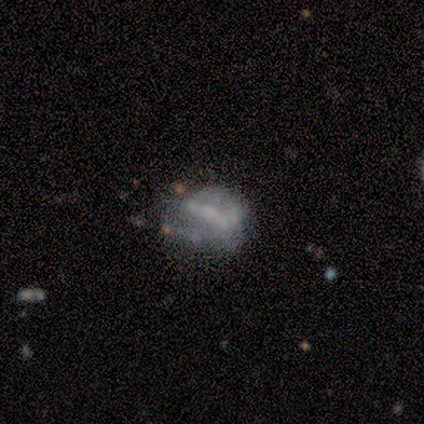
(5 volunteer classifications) featured or disk 60%, smooth 20%, star or artifact 20%. Down the decision tree: edge-on disk — no (100%); bar — strong (33%, tied with weak and no); spiral arms — no (67%); bulge size — none (100%); merging — none (50%, tied with minor disturbance).